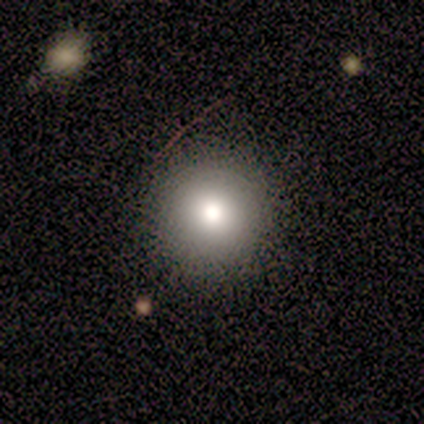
Smooth or featured: smooth — 90% (featured or disk — 5%)
How rounded: round — 100%
Merging: none — 91% (minor disturbance — 5%)